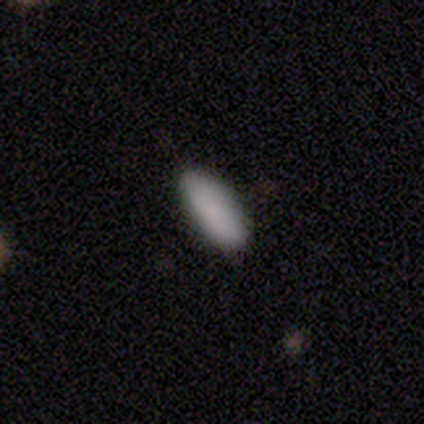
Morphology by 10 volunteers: Q: Smooth or featured?
A: smooth (100%)
Q: How rounded?
A: in between (100%)
Q: Merging?
A: none (100%)